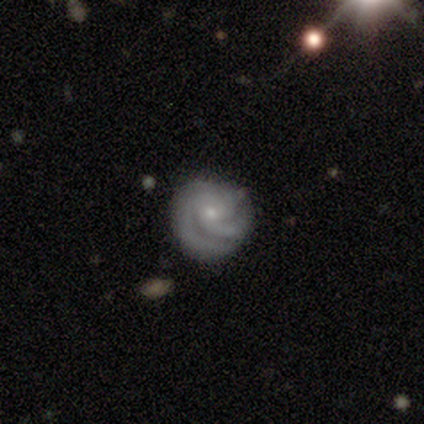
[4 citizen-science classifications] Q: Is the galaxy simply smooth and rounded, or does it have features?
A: featured or disk — 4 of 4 (100%).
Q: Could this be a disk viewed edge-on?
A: no — 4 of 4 (100%).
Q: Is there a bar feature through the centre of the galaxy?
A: no — 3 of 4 (75%).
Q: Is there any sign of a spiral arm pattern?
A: yes — 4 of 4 (100%).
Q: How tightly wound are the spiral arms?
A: tight — 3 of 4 (75%).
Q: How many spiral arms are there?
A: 2 — 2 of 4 (50%).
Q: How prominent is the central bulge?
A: small — 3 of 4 (75%).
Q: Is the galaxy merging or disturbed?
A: none — 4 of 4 (100%).